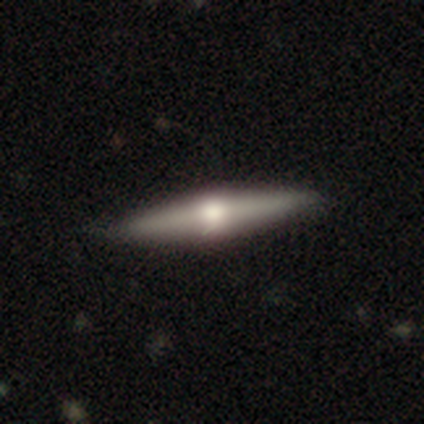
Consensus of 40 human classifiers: A featured or disk galaxy (62%) viewed edge-on (100%) with a rounded central bulge (100%).

Vote fractions:
- Smooth or featured? featured or disk: 62% / smooth: 35% / star or artifact: 2%
- Edge-on disk? yes: 100% / no: 0%
- Edge-on bulge? rounded: 100% / boxy: 0% / none: 0%
- Merging? none: 72% / minor disturbance: 10% / merger: 5% / major disturbance: 0%